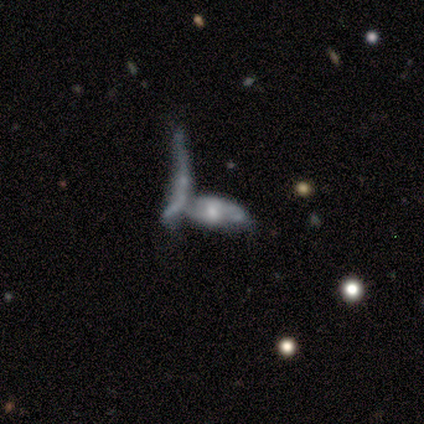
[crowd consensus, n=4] This appears to be a star or artifact, not a galaxy (50%).